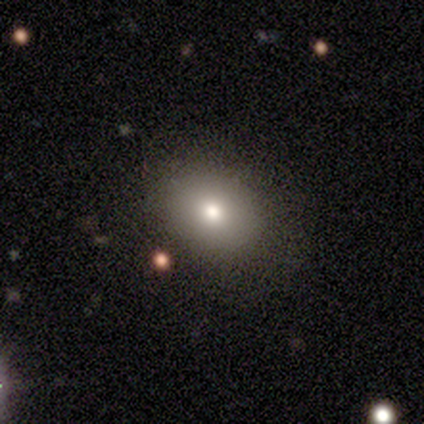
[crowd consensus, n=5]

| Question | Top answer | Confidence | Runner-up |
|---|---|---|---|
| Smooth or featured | smooth | 60% | featured or disk (40%) |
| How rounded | in between | 67% | round (33%) |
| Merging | none | 100% | — |